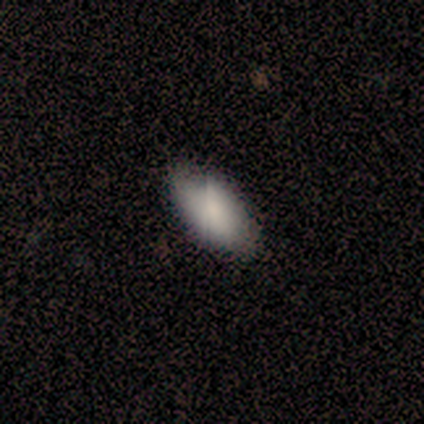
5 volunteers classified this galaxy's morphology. smooth 100%, featured or disk 0%, star or artifact 0%. Down the decision tree: how rounded — in between (100%); merging — none (60%).